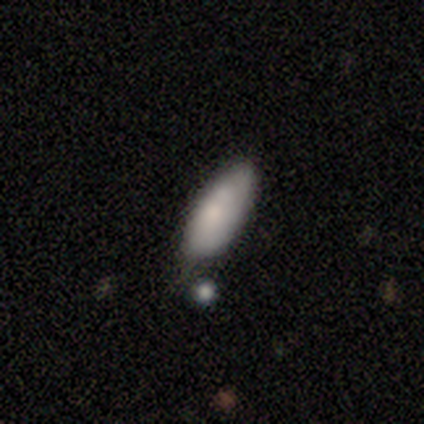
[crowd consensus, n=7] Smooth or featured?
  - smooth: 86% *
  - featured or disk: 14%
  - star or artifact: 0%
How rounded?
  - in between: 100% *
  - round: 0%
  - cigar-shaped: 0%
Merging?
  - none: 57% *
  - minor disturbance: 29%
  - major disturbance: 14%
  - merger: 0%